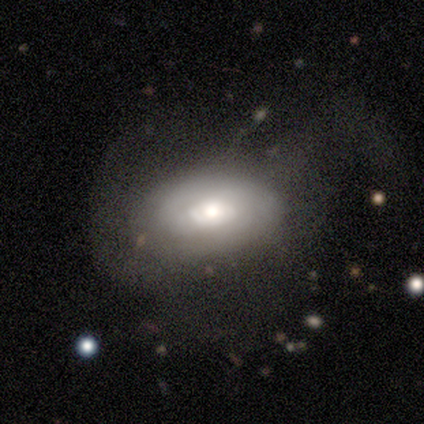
Smooth or featured? featured or disk (67%)
Edge-on disk? no (100%)
Bar? no (75%)
Spiral arms? yes (50%, tied with no)
Spiral winding? tight (50%, tied with loose)
Spiral arm count? 1 (50%, tied with can't tell)
Bulge size? moderate (75%)
Merging? major disturbance (50%)